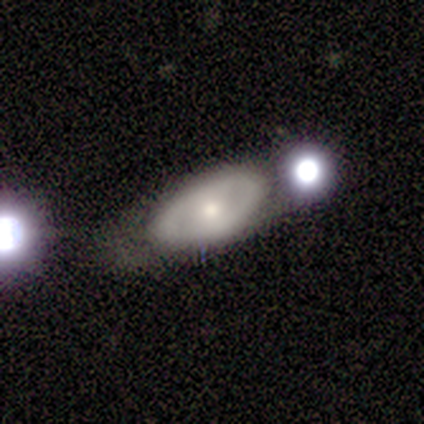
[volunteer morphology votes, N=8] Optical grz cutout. It shows a smooth galaxy with no disk features (50%, tied with featured or disk) that is in between round and cigar-shaped (100%). Merging: minor disturbance (38%).